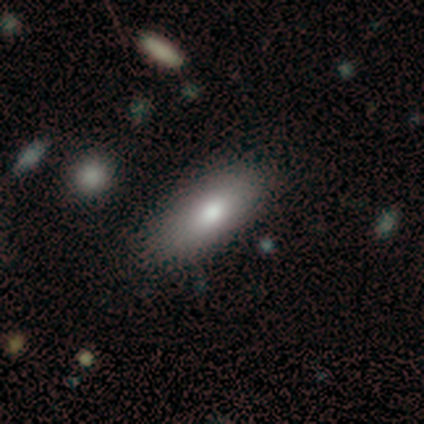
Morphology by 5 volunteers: Smooth or featured? 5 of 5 (100%) said smooth. How rounded? 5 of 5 (100%) said in between. Merging? 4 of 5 (80%) said none.